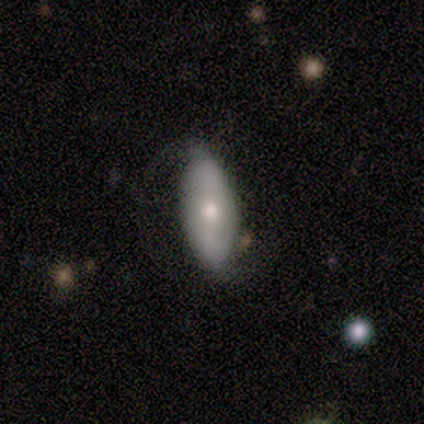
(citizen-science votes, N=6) Smooth or featured? smooth (67%)
How rounded? in between (100%)
Merging? none (60%)